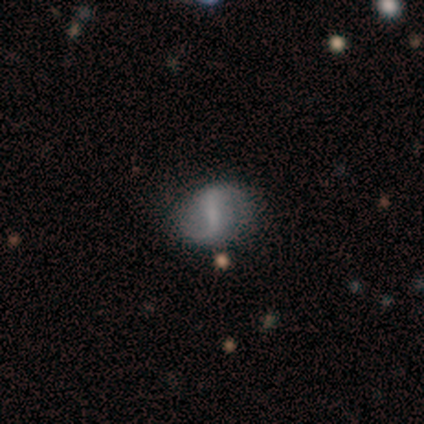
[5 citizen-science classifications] Overall: featured or disk (80%). Edge-on disk: no (100%). Bar: strong (50%, tied with weak). Spiral arms: yes (100%). Spiral arm count: 2 (100%). Spiral winding: medium (50%, tied with loose). Bulge size: small (75%). Merging: none (100%).